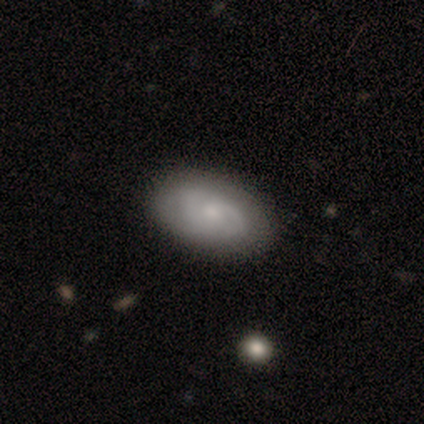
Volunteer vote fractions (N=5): Smooth or featured? 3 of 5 (60%) said featured or disk. Edge-on disk? 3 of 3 (100%) said no. Bar? 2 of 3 (67%) said no. Spiral arms? 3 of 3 (100%) said yes. Spiral winding? 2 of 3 (67%) said tight. Spiral arm count? 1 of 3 (33%, tied with 3 and can't tell) said 2. Bulge size? 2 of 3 (67%) said small. Merging? 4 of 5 (80%) said none.